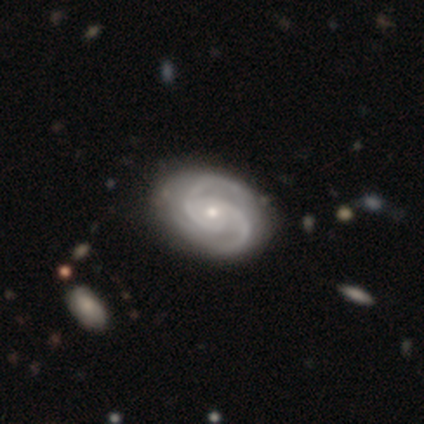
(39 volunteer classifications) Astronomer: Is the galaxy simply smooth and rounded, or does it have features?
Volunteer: featured or disk — 97%.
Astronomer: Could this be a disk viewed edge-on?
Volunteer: no — 97%.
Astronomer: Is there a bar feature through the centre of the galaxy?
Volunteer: no — 81%.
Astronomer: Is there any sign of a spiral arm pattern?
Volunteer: yes — 97%.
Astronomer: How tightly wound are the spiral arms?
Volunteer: medium — 56% (runner-up: tight, 42%).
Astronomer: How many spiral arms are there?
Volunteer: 2 — 81%.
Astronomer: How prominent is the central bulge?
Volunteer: small — 62% (runner-up: moderate, 38%).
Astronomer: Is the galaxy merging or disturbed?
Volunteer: none — 64%.